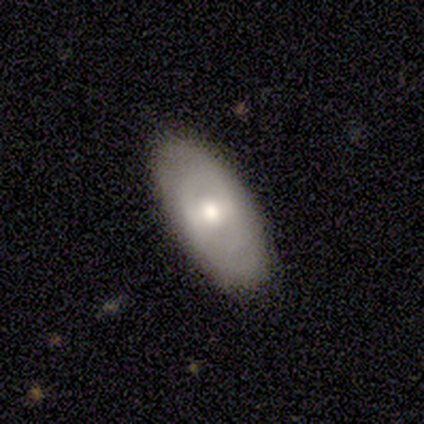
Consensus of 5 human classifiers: Q: Smooth or featured?
A: smooth (80%); runner-up: featured or disk (20%)
Q: How rounded?
A: round (50%); tied with: in between (50%)
Q: Merging?
A: none (100%)